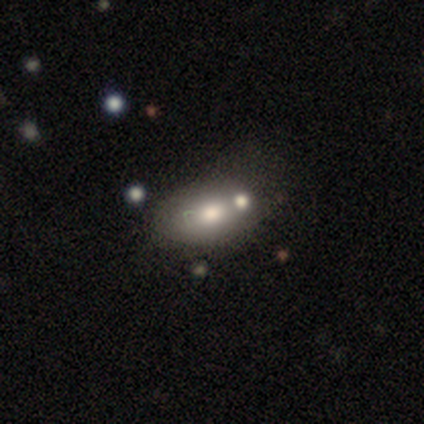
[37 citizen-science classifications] Smooth or featured: smooth — 59% (featured or disk — 35%)
How rounded: in between — 82% (round — 18%)
Merging: none — 46% (merger — 34%)